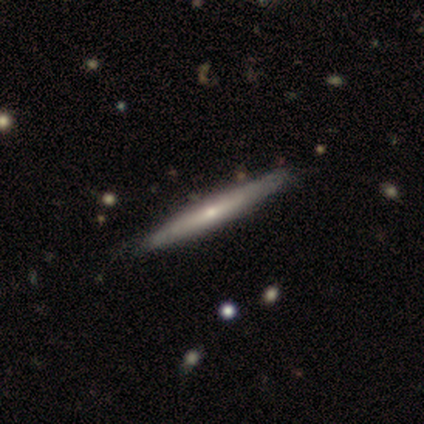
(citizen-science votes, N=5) A smooth galaxy with no disk features (60%) that is cigar-shaped (100%). Merging: none (100%).